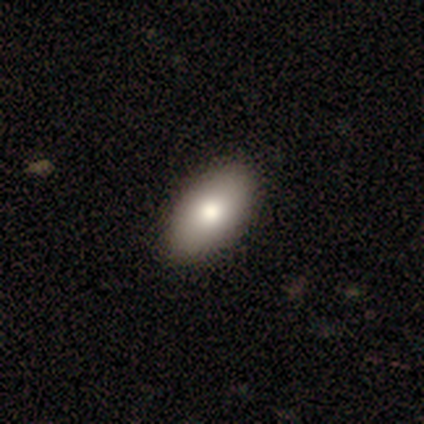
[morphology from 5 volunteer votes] A smooth galaxy with no disk features (80%) that is in between round and cigar-shaped (100%). Merging: none (100%).